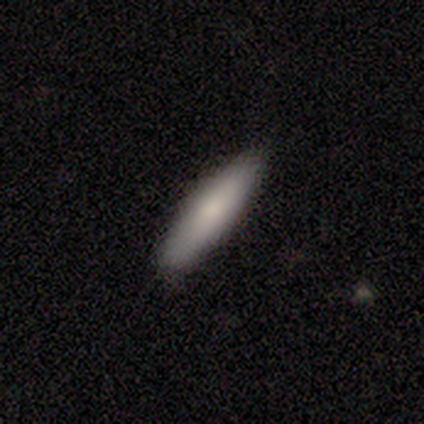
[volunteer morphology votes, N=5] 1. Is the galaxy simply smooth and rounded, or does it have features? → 100% smooth, 0% featured or disk, 0% star or artifact.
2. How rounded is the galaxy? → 80% cigar-shaped, 20% in between, 0% round.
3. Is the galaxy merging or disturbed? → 100% none, 0% minor disturbance, 0% major disturbance, 0% merger.